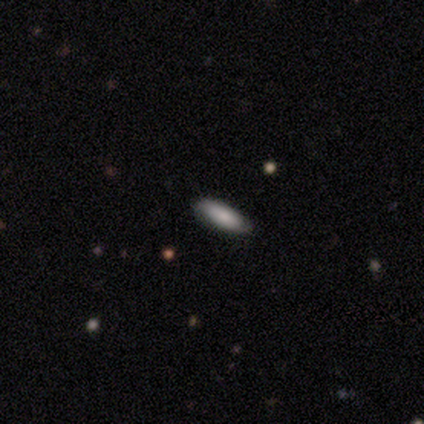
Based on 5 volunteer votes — Smooth or featured: smooth — 100%
How rounded: cigar-shaped — 60% (in between — 40%)
Merging: none — 100%